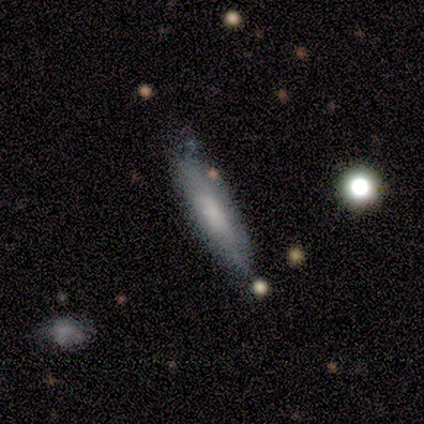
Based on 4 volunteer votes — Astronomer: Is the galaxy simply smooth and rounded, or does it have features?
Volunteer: smooth — 50%.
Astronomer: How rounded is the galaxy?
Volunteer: cigar-shaped — 100%.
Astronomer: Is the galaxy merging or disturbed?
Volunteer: minor disturbance — 67%.